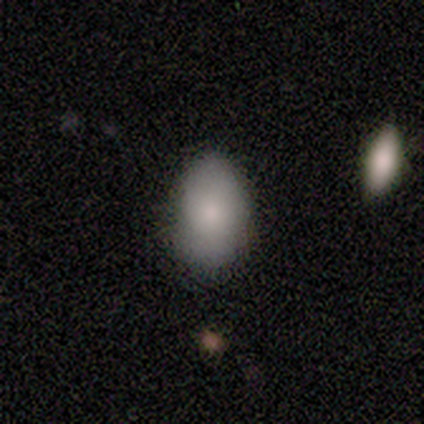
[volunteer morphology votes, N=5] Smooth or featured? smooth (100%)
How rounded? in between (80%)
Merging? none (80%)